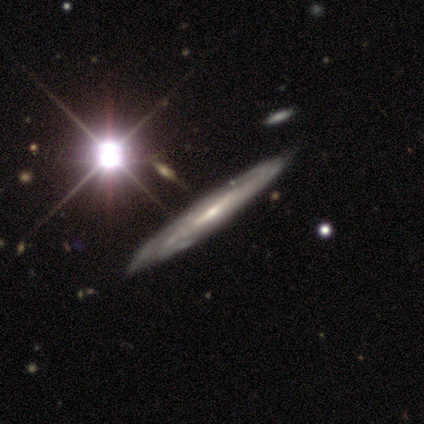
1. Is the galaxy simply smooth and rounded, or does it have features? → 86% featured or disk, 14% smooth, 0% star or artifact.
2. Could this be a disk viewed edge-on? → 50% yes (tied), 50% no (tied).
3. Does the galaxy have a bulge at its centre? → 100% none, 0% boxy, 0% rounded.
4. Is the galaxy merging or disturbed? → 71% none, 29% minor disturbance, 0% major disturbance, 0% merger.